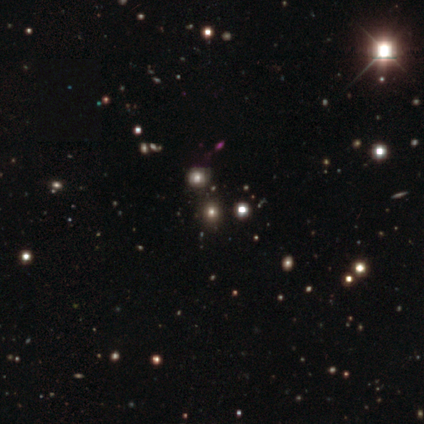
Morphology: type=star or artifact (100%).